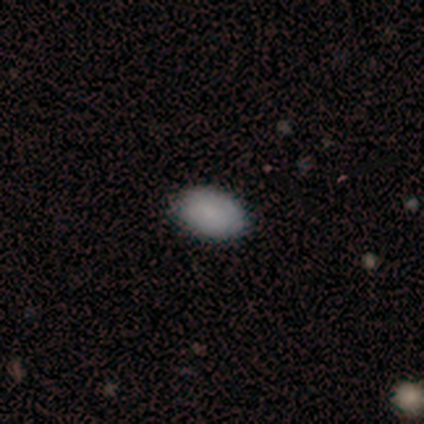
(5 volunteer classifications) Q: Smooth or featured?
A: smooth (100%)
Q: How rounded?
A: in between (100%)
Q: Merging?
A: none (100%)